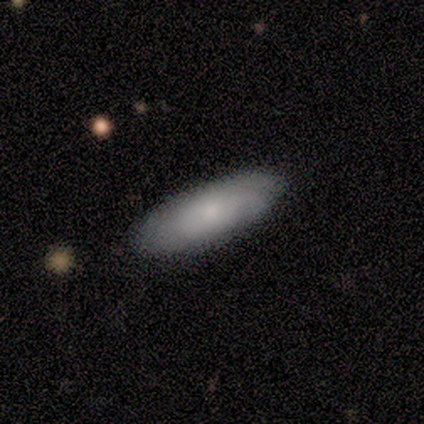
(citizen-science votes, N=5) Smooth or featured? smooth (80%)
How rounded? in between (100%)
Merging? none (100%)